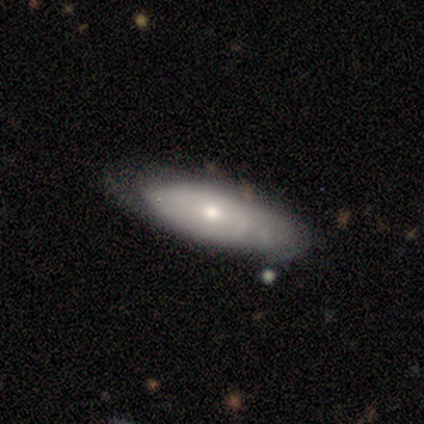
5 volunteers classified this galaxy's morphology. Q: Smooth or featured?
A: featured or disk (60%); runner-up: smooth (40%)
Q: Edge-on disk?
A: no (67%); runner-up: yes (33%)
Q: Bar?
A: weak (50%); tied with: no (50%)
Q: Spiral arms?
A: yes (100%)
Q: Spiral winding?
A: tight (50%); tied with: medium (50%)
Q: Spiral arm count?
A: can't tell (100%)
Q: Bulge size?
A: moderate (100%)
Q: Merging?
A: none (60%); runner-up: minor disturbance (40%)